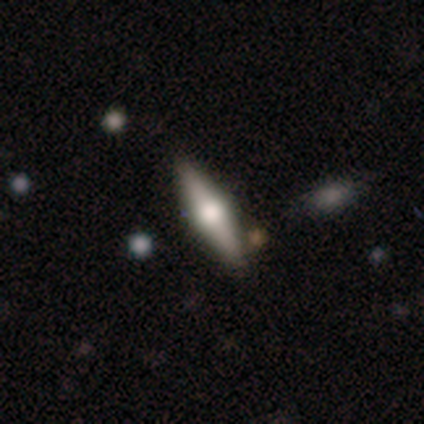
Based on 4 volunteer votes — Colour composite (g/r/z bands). It shows a featured or disk galaxy (75%) viewed edge-on (67%) with a rounded central bulge (100%). Merging: none (75%).